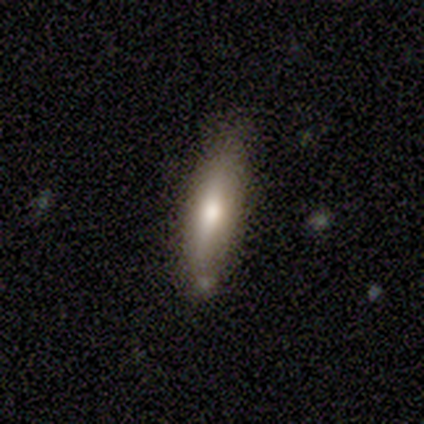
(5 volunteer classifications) Morphology: type=smooth (60%); roundness=cigar-shaped (100%); merging=none (75%).